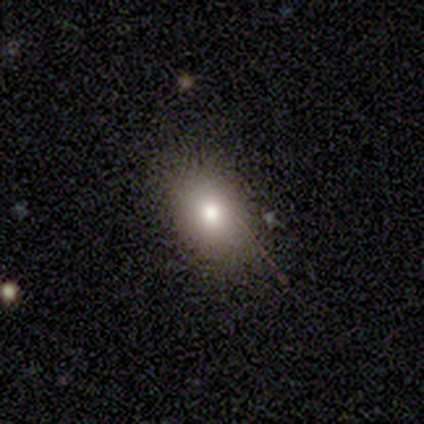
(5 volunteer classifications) Smooth or featured: star or artifact — 60% (smooth — 40%)